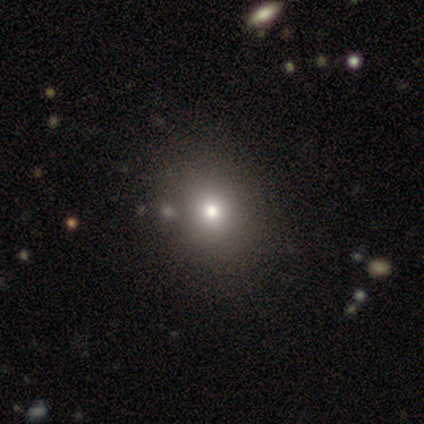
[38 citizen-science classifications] smooth 79%, star or artifact 16%, featured or disk 5%. Down the decision tree: how rounded — round (77%); merging — none (66%).